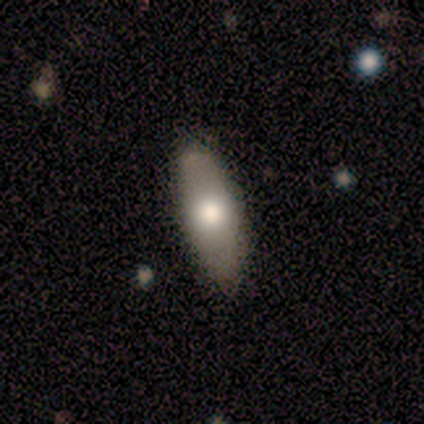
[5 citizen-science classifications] Morphology: type=smooth (60%); roundness=in between (67%); merging=none (100%).